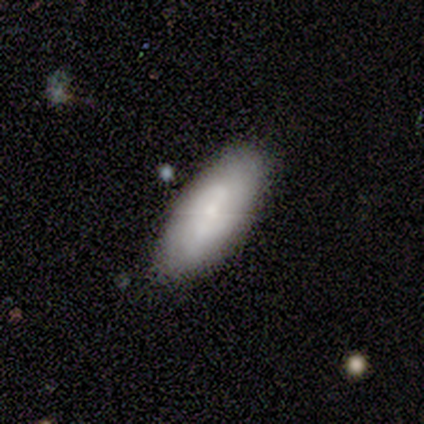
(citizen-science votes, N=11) Smooth or featured? featured or disk (55%)
Edge-on disk? no (83%)
Bar? no (80%)
Spiral arms? yes (60%)
Spiral winding? tight (100%)
Spiral arm count? 2 (67%)
Bulge size? moderate (60%)
Merging? none (91%)